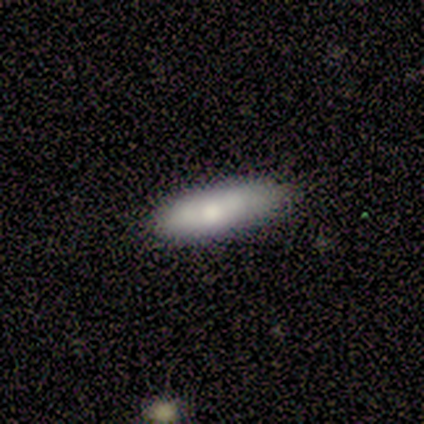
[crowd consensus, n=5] Overall: smooth (80%). How rounded: in between (50%, tied with cigar-shaped). Merging: none (100%).